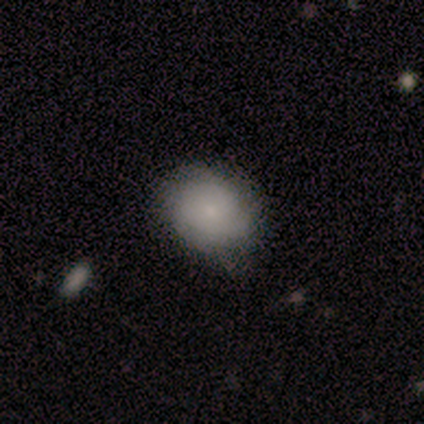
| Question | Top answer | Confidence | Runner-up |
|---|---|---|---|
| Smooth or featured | smooth | 75% | featured or disk (21%) |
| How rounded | in between | 51% | round (49%) |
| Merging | none | 58% | minor disturbance (38%) |